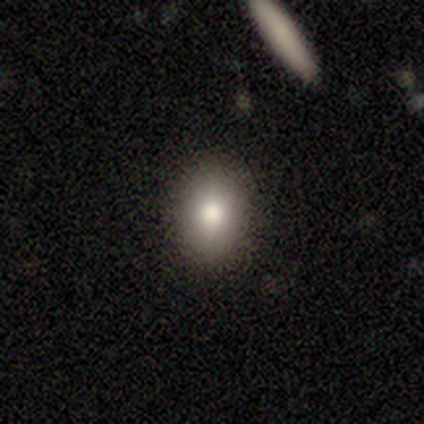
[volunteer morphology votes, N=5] Smooth or featured?
  - smooth: 80% *
  - featured or disk: 20%
  - star or artifact: 0%
How rounded?
  - round: 50% * (tied)
  - in between: 50% * (tied)
  - cigar-shaped: 0%
Merging?
  - none: 80% *
  - minor disturbance: 20%
  - major disturbance: 0%
  - merger: 0%